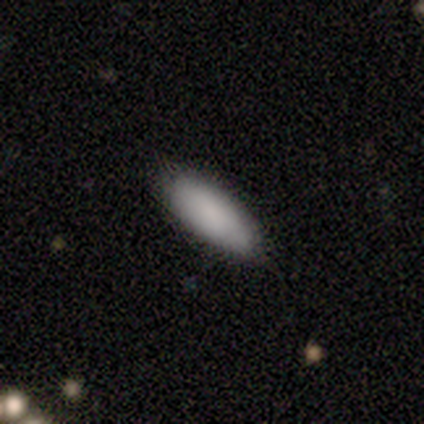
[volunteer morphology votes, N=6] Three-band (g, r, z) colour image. It shows a smooth galaxy with no disk features (100%) that is in between round and cigar-shaped (100%). Merging: none (83%).